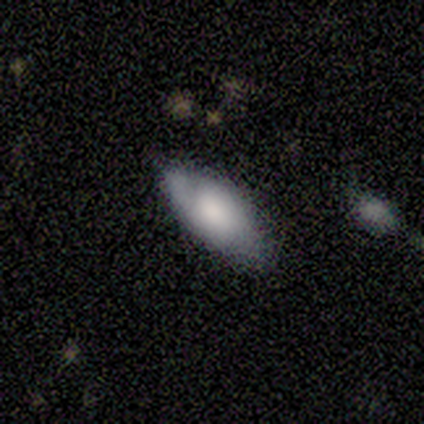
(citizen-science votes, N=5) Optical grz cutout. It shows a featured or disk galaxy (60%) with no bar (100%), 2 (100%) medium (100%) spiral arms (50%, tied with no) and a large central bulge (50%, tied with none). Merging: none (80%).